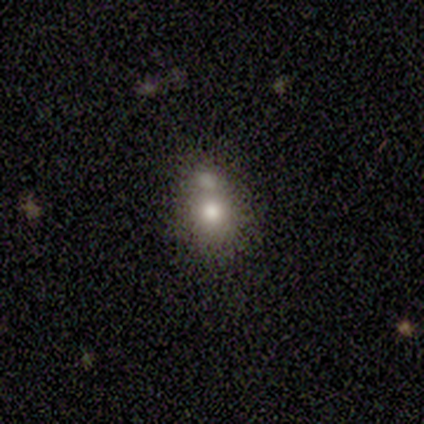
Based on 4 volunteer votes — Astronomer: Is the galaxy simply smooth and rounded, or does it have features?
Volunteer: smooth — 100%.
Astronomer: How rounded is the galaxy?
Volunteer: round — 100%.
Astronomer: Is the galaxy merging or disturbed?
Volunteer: none — 75%.